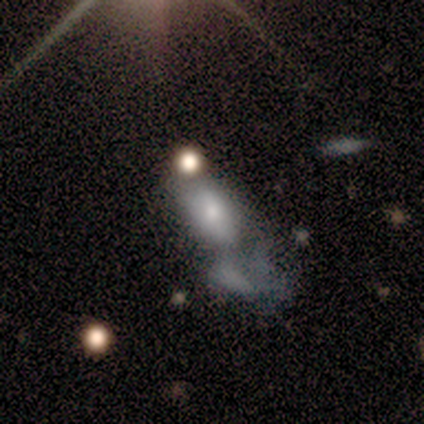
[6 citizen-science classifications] This is possibly a smooth galaxy (50%). How rounded: clearly in between (100%). Merging: likely major disturbance (75%).